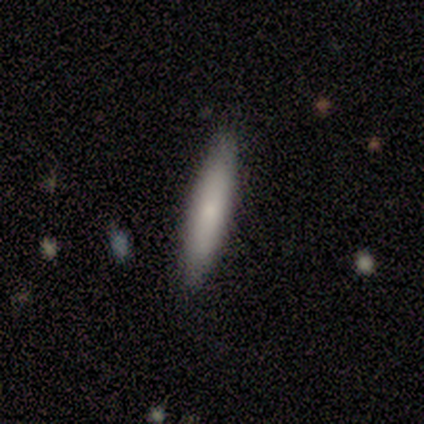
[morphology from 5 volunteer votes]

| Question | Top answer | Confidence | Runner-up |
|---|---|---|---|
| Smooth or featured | smooth | 60% | featured or disk (40%) |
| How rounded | cigar-shaped | 100% | — |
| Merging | none | 80% | minor disturbance (20%) |